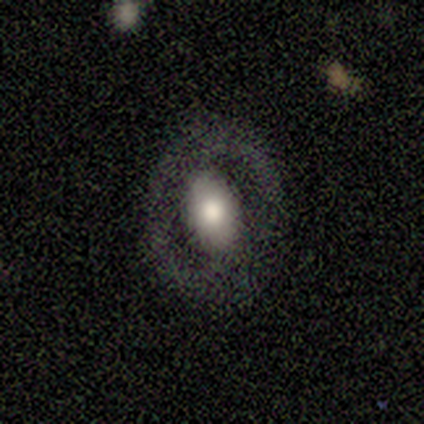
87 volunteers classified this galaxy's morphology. Q: Smooth or featured?
A: featured or disk (53%); runner-up: smooth (43%)
Q: Edge-on disk?
A: no (96%); runner-up: yes (4%)
Q: Bar?
A: no (59%); runner-up: weak (23%)
Q: Spiral arms?
A: no (84%); runner-up: yes (16%)
Q: Bulge size?
A: moderate (50%); runner-up: large (45%)
Q: Merging?
A: none (83%); runner-up: minor disturbance (10%)